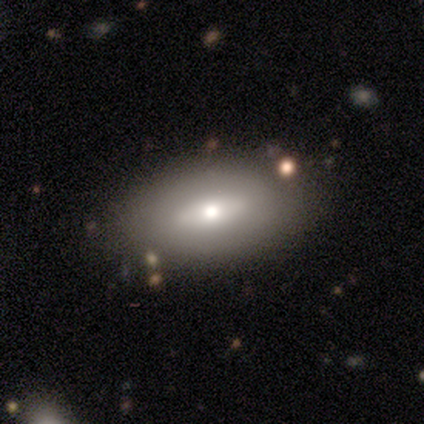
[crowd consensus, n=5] Smooth or featured? 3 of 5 (60%) said featured or disk. Edge-on disk? 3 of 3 (100%) said no. Bar? 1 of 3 (33%, tied with weak and no) said strong. Spiral arms? 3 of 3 (100%) said no. Bulge size? 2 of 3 (67%) said small. Merging? 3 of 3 (100%) said none.